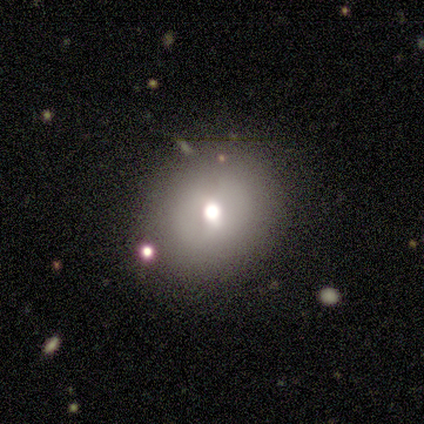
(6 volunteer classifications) This is likely a smooth galaxy (67%). How rounded: likely round (75%). Merging: clearly none (100%).